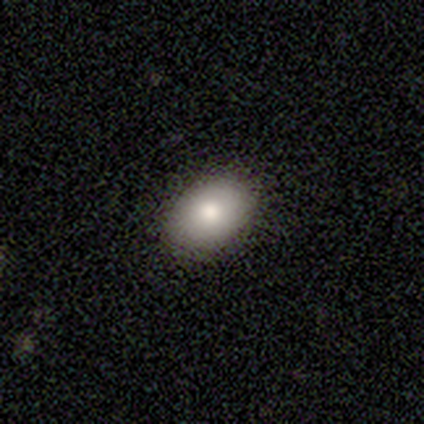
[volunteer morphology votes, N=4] Overall: smooth (75%). How rounded: in between (67%; round 33%). Merging: none (100%).